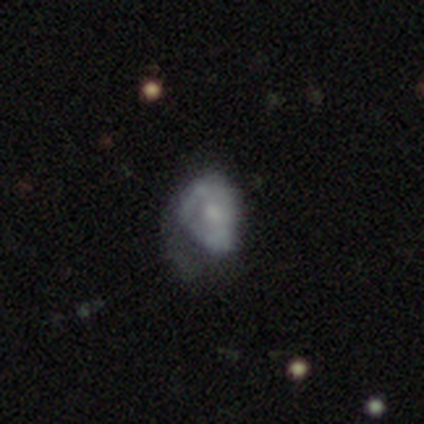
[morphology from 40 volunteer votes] type=smooth (50%); roundness=in between (80%); merging=major disturbance (54%).